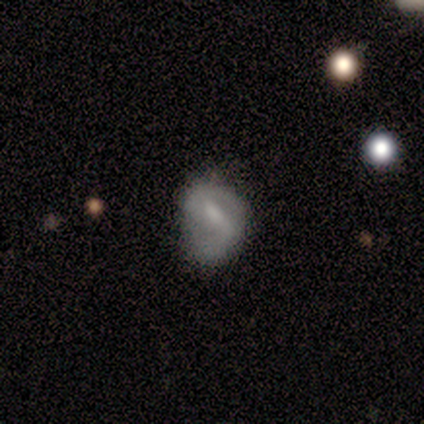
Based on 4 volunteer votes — Morphology: type=featured or disk (75%); edge-on=no (100%); bar=strong (67%); spiral arms=yes (100%); winding=tight (67%); arm count=2 (67%); bulge=moderate (67%); merging=none (50%, tied with minor disturbance).